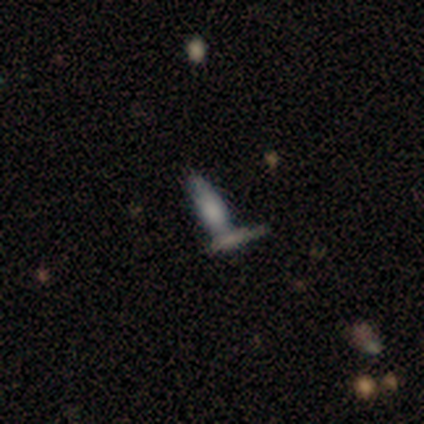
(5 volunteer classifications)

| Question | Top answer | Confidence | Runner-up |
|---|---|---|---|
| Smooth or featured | smooth | 60% | featured or disk (40%) |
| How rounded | in between | 67% | cigar-shaped (33%) |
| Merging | none | 40% | tied: minor disturbance (40%) |